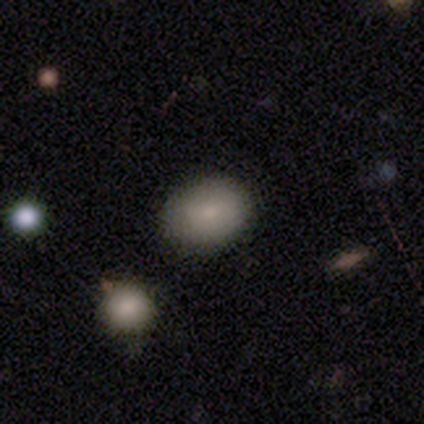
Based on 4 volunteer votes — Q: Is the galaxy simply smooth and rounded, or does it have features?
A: smooth — 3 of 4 (75%).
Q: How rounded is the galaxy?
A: in between — 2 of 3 (67%).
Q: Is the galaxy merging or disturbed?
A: none — 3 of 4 (75%).